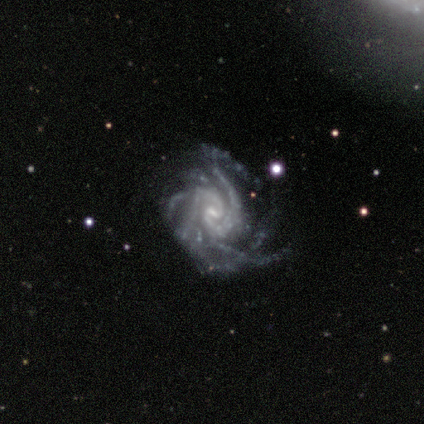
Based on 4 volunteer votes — smooth_or_featured: featured or disk (p=1.00)
disk_edge_on: no (p=1.00)
bar: weak (p=0.75) [alt: strong p=0.25]
has_spiral_arms: yes (p=1.00)
spiral_winding: tight (p=0.75) [alt: medium p=0.25]
spiral_arm_count: more than 4 (p=0.50) [tied with: can't tell p=0.50]
bulge_size: moderate (p=0.50) [alt: small p=0.25]
merging: none (p=1.00)